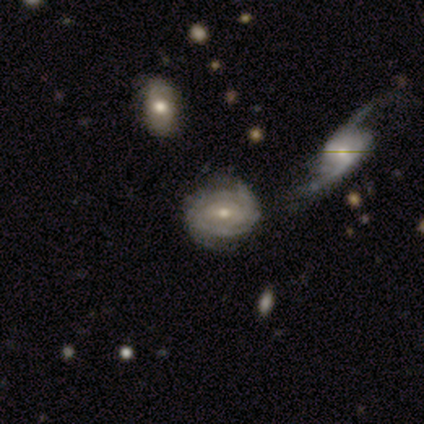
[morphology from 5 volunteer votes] Overall: featured or disk (80%). Edge-on disk: no (100%). Bar: no (75%). Spiral arms: yes (100%). Spiral arm count: can't tell (75%). Spiral winding: tight (100%). Bulge size: moderate (50%, tied with small). Merging: none (60%; minor disturbance 40%).